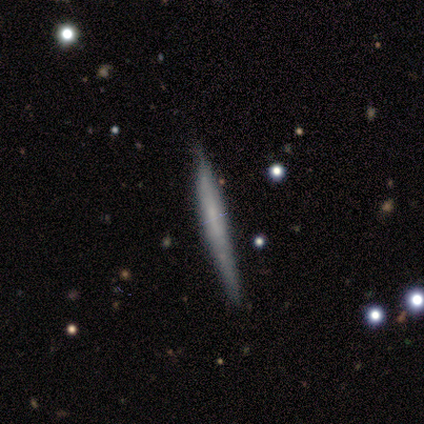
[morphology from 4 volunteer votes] Overall: smooth (75%). How rounded: cigar-shaped (100%). Merging: none (50%, tied with minor disturbance).